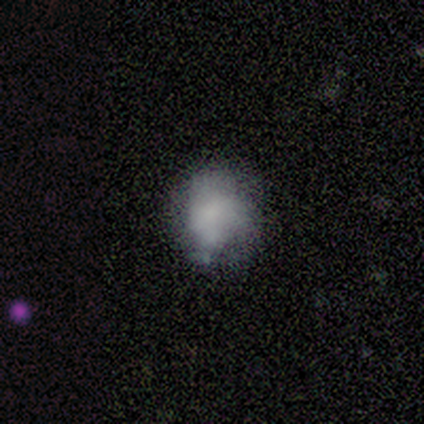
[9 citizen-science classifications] Smooth or featured: smooth — 78% (star or artifact — 22%)
How rounded: round — 71% (in between — 29%)
Merging: minor disturbance — 57% (none — 43%)